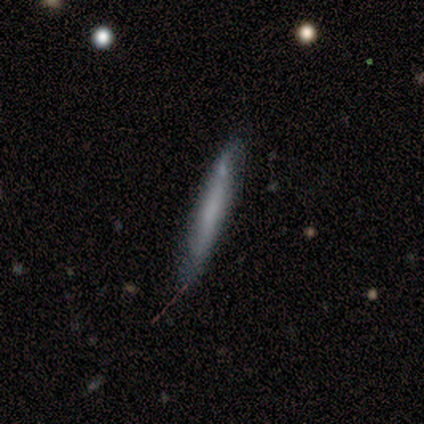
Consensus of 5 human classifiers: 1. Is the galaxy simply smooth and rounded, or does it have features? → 80% smooth, 20% featured or disk, 0% star or artifact.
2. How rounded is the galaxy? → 75% cigar-shaped, 25% in between, 0% round.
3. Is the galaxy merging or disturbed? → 100% none, 0% minor disturbance, 0% major disturbance, 0% merger.